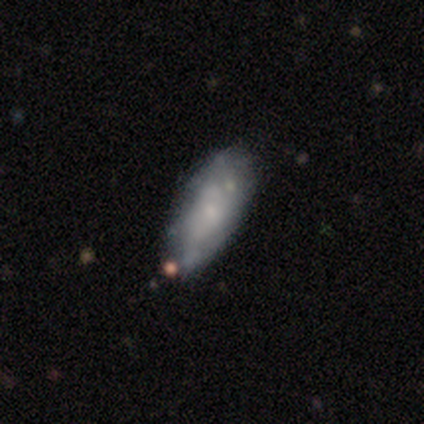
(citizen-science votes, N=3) Smooth or featured? 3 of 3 (100%) said smooth. How rounded? 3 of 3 (100%) said in between. Merging? 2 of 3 (67%) said none.